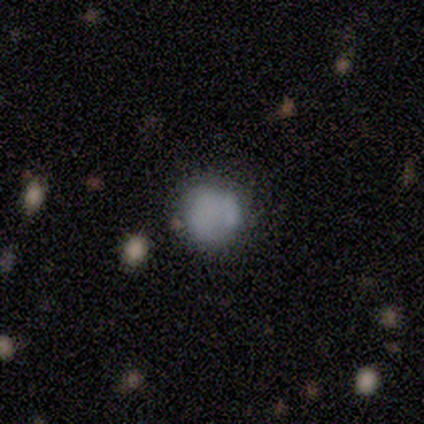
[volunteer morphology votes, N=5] smooth_or_featured: smooth (p=0.60) [alt: featured or disk p=0.20]
how_rounded: round (p=0.67) [alt: in between p=0.33]
merging: none (p=1.00)